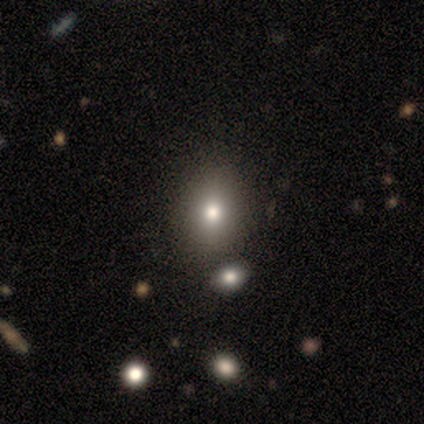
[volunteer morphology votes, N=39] Overall: smooth (74%). How rounded: in between (76%). Merging: none (54%; merger 17%).